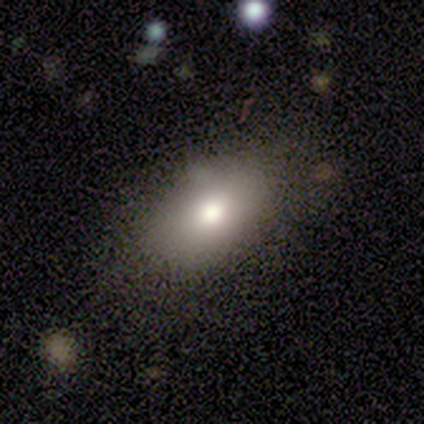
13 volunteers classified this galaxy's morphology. smooth-or-featured: smooth: 85% | featured or disk: 8% | star or artifact: 8%
  how-rounded: in between: 100% | round: 0% | cigar-shaped: 0%
  merging: none: 92% | minor disturbance: 8% | major disturbance: 0% | merger: 0%